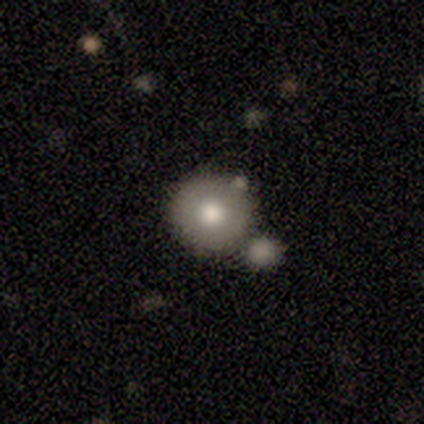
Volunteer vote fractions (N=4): Morphology: type=smooth (75%); roundness=round (100%); merging=none (50%, tied with merger).